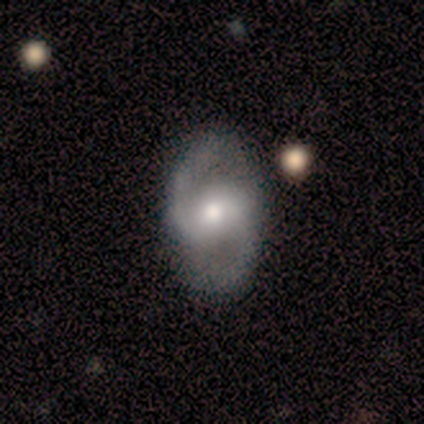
Volunteers were most divided on "bulge size": moderate: 50%, small: 38%, large: 12%, dominant: 0%, none: 0%. More confident: edge-on disk — no (100%); spiral winding — medium (100%); spiral arm count — 2 (100%); smooth or featured — featured or disk (89%); merging — none (89%); spiral arms — yes (88%); bar — weak (50%).